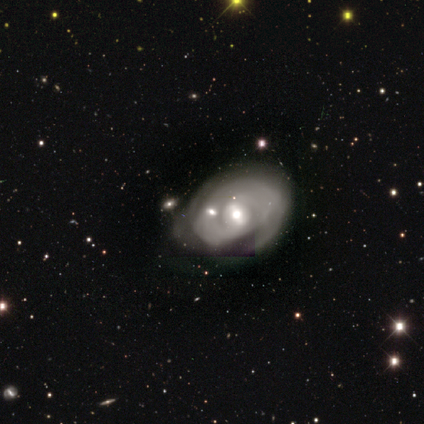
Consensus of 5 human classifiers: This is clearly a featured or disk galaxy (100%). It is clearly not viewed edge-on (100%). Bar: clearly weak (80%). Spiral arm pattern: likely no (60%). Central bulge: likely moderate (60%). Merging: clearly minor disturbance (80%).